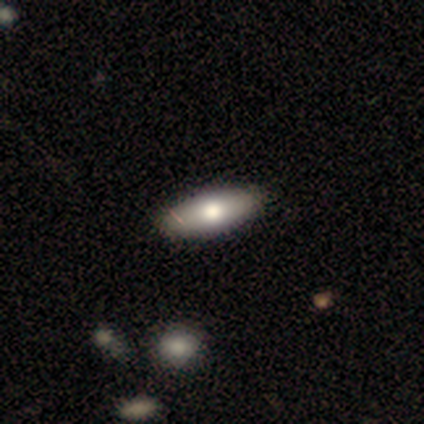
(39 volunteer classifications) Smooth or featured? 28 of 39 (72%) said smooth. How rounded? 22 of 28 (79%) said in between. Merging? 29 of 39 (74%) said none.